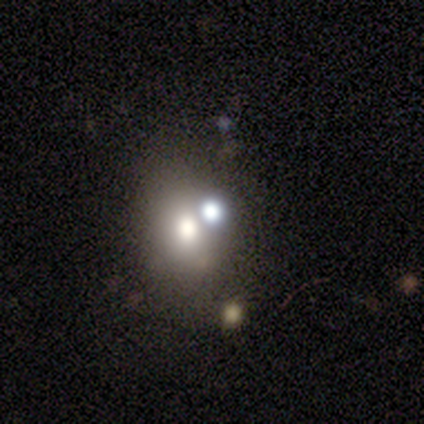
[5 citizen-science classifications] smooth 60%, featured or disk 20%, star or artifact 20%. Down the decision tree: how rounded — round (100%); merging — none (50%, tied with merger).